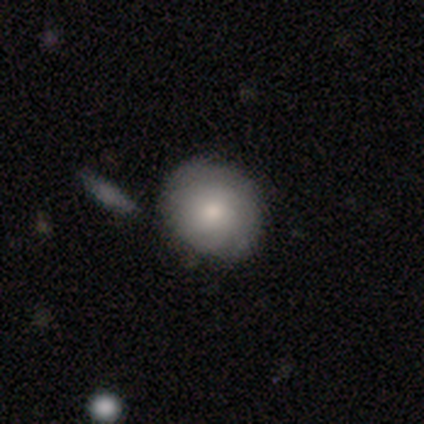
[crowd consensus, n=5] Smooth or featured? 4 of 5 (80%) said smooth. How rounded? 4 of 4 (100%) said round. Merging? 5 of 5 (100%) said none.